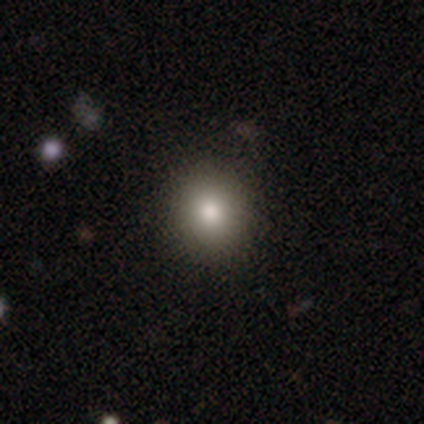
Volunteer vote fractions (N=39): smooth_or_featured: smooth (p=0.90) [alt: featured or disk p=0.05]
how_rounded: round (p=0.80) [alt: in between p=0.17]
merging: none (p=0.86) [alt: minor disturbance p=0.11]